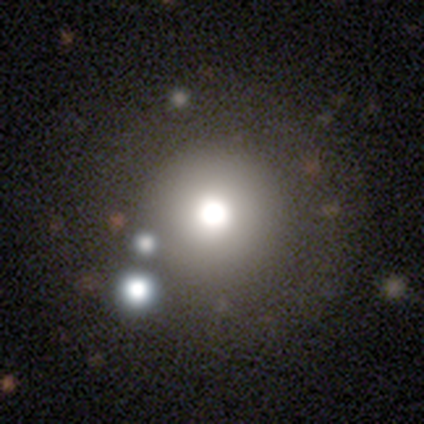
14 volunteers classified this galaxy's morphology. smooth 36% (tied), star or artifact 36% (tied), featured or disk 29%. Down the decision tree: how rounded — round (100%); merging — none (89%).